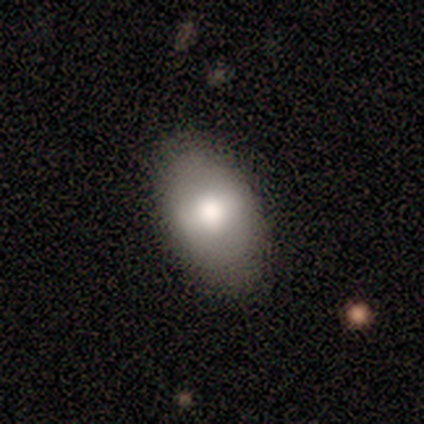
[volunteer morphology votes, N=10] Smooth or featured: smooth — 80% (featured or disk — 20%)
How rounded: in between — 88% (round — 12%)
Merging: none — 70% (minor disturbance — 30%)